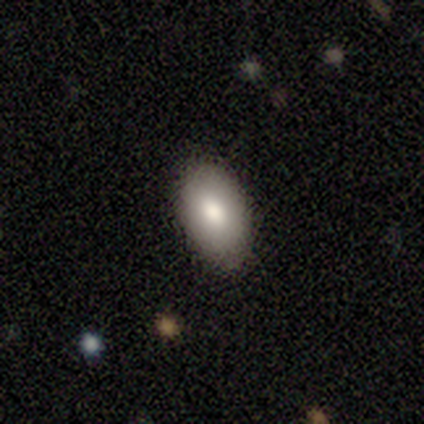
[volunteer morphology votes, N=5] Smooth or featured? smooth (100%)
How rounded? in between (100%)
Merging? none (80%)